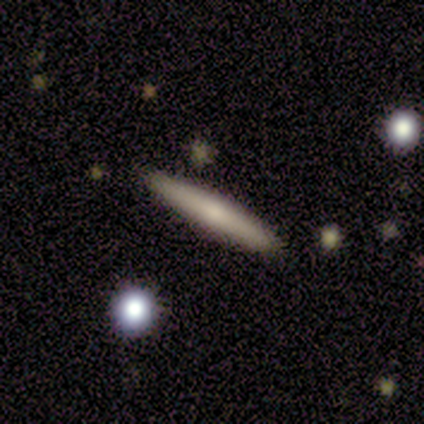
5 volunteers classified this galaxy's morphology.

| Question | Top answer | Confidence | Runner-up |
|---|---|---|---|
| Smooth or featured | featured or disk | 60% | smooth (40%) |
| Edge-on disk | yes | 100% | — |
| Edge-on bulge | rounded | 100% | — |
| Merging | none | 80% | minor disturbance (20%) |